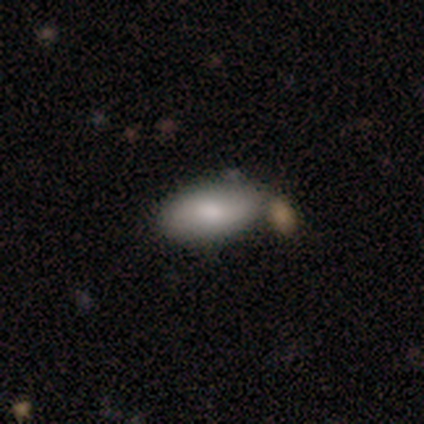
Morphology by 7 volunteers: Smooth or featured? smooth (100%)
How rounded? in between (100%)
Merging? none (57%)